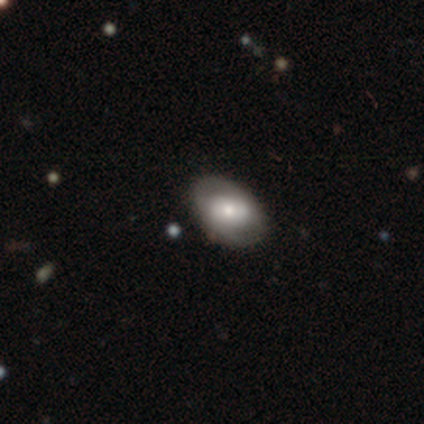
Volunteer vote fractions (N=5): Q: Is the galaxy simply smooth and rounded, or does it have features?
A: featured or disk — 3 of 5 (60%).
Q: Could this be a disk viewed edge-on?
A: no — 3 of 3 (100%).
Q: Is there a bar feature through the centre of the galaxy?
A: weak — 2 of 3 (67%).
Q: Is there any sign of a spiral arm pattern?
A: no — 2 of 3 (67%).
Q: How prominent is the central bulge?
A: large — 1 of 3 (33%, tied with moderate and small).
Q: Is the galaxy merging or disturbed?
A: none — 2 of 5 (40%, tied with minor disturbance).